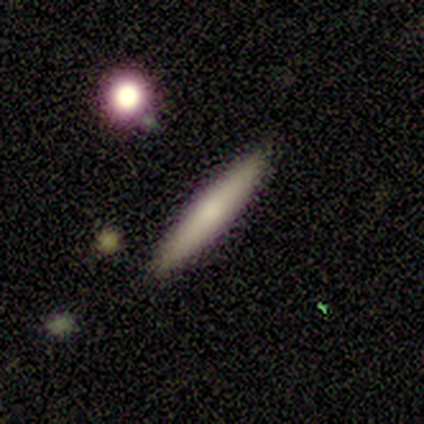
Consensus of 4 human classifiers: smooth-or-featured: smooth: 75% | featured or disk: 25% | star or artifact: 0%
  how-rounded: cigar-shaped: 100% | round: 0% | in between: 0%
  merging: none: 75% | major disturbance: 25% | minor disturbance: 0% | merger: 0%